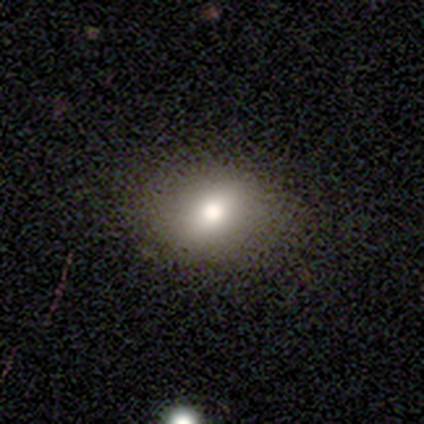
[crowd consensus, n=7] Smooth or featured: featured or disk — 43% (smooth — 29%)
Edge-on disk: no — 100%
Bar: no — 100%
Spiral arms: no — 100%
Bulge size: large — 67% (moderate — 33%)
Merging: none — 100%